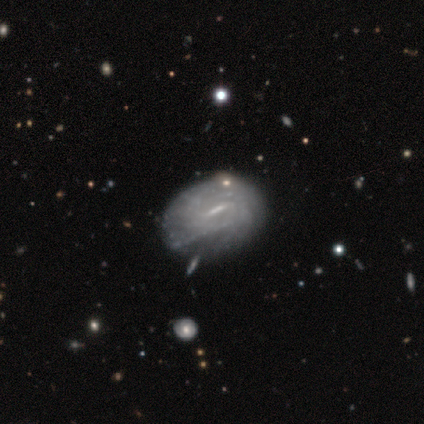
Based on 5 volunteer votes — A featured or disk galaxy (60%) with a weak bar (67%), tight (50%, tied with medium) spiral arms (67%) and no central bulge (67%).

Vote fractions:
- Smooth or featured? featured or disk: 60% / smooth: 40% / star or artifact: 0%
- Edge-on disk? no: 100% / yes: 0%
- Bar? weak: 67% / strong: 33% / no: 0%
- Spiral arms? yes: 67% / no: 33%
- Spiral winding? tight: 50% (tied) / medium: 50% (tied) / loose: 0%
- Spiral arm count? can't tell: 100% / 1: 0% / 2: 0% / 3: 0% / 4: 0% / more than 4: 0%
- Bulge size? none: 67% / small: 33% / dominant: 0% / large: 0% / moderate: 0%
- Merging? minor disturbance: 80% / none: 20% / major disturbance: 0% / merger: 0%